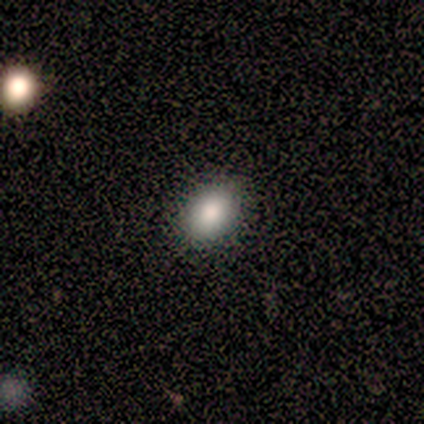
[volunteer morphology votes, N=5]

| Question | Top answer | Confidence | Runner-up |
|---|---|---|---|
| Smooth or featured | smooth | 80% | star or artifact (20%) |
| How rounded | in between | 100% | — |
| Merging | none | 100% | — |